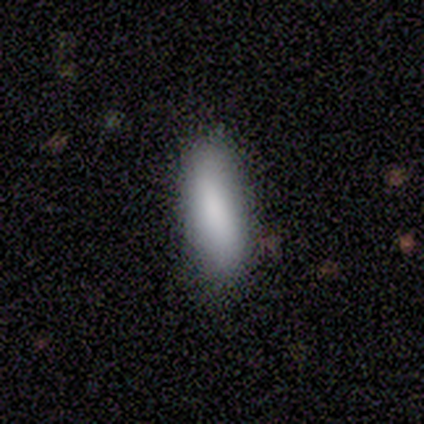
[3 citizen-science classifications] Smooth or featured: smooth — 100%
How rounded: in between — 67% (cigar-shaped — 33%)
Merging: none — 67% (minor disturbance — 33%)